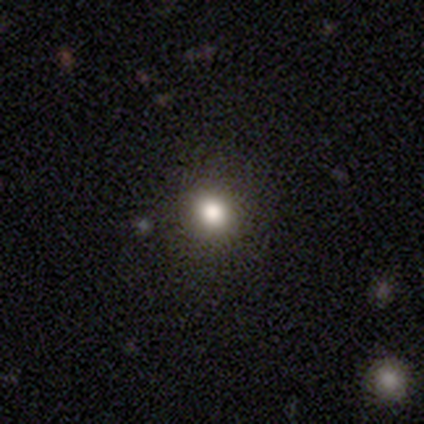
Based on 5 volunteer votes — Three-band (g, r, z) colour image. It shows a smooth galaxy with no disk features (60%) that is round (67%). Merging: none (100%).